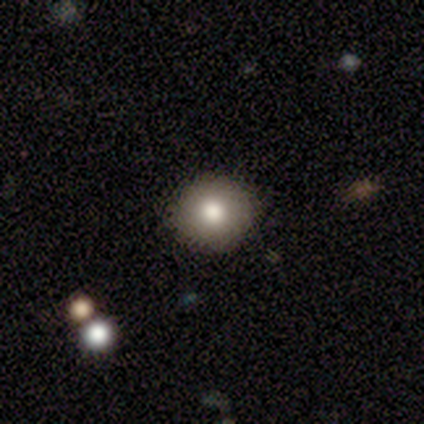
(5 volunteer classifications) This appears to be a smooth galaxy with no disk features (100%) that is round (100%). Merging: none (100%).